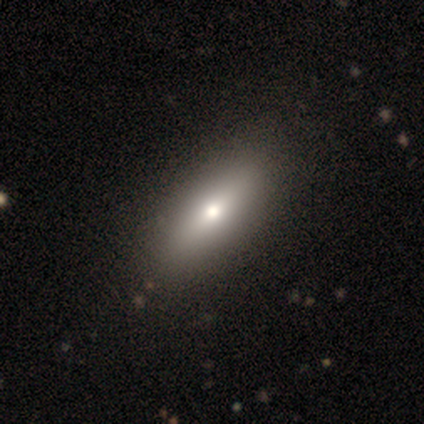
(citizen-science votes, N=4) Overall: smooth (75%). How rounded: cigar-shaped (67%; in between 33%). Merging: none (100%).